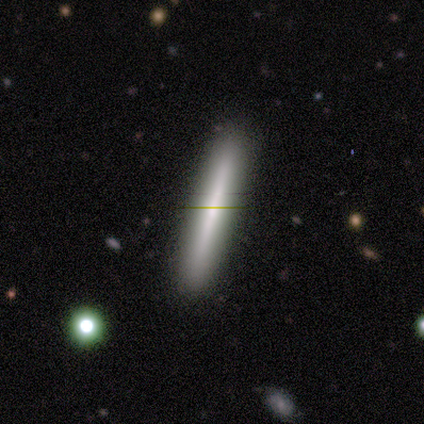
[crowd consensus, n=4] smooth_or_featured: smooth (p=0.50) [tied with: featured or disk p=0.50]
how_rounded: cigar-shaped (p=1.00)
merging: none (p=1.00)